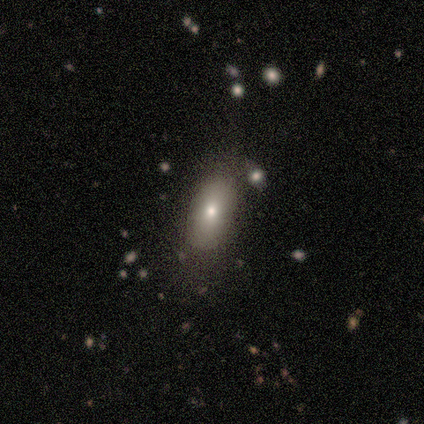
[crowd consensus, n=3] smooth 67%, featured or disk 33%, star or artifact 0%. Down the decision tree: how rounded — in between (100%); merging — none (67%).